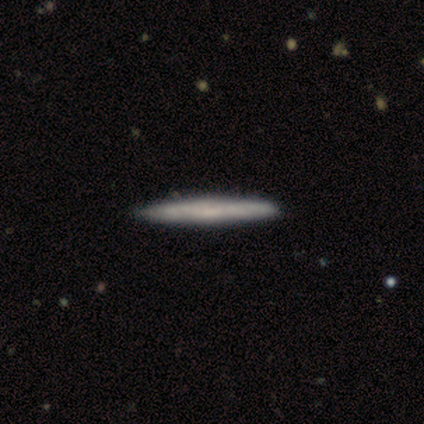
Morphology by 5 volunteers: A featured or disk galaxy (60%) viewed edge-on (100%) with no central bulge (67%). Merging: none (75%).